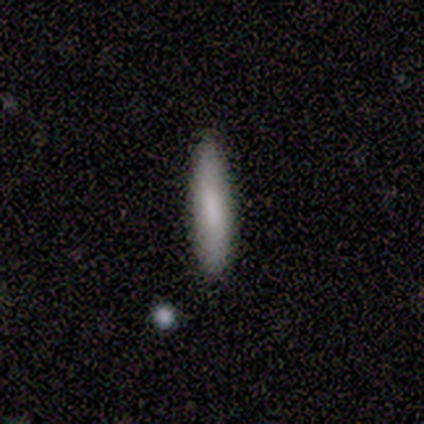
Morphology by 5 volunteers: smooth 100%, featured or disk 0%, star or artifact 0%. Down the decision tree: how rounded — cigar-shaped (60%); merging — none (100%).